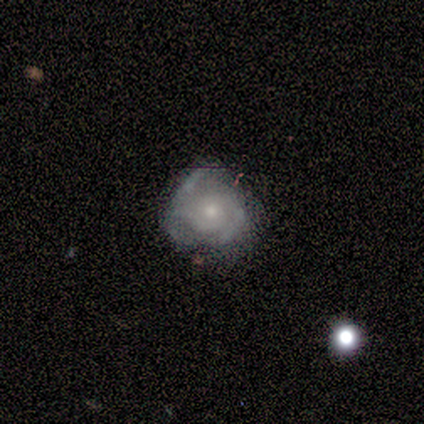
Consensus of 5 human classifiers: featured or disk 100%, smooth 0%, star or artifact 0%. Down the decision tree: edge-on disk — no (100%); bar — weak (60%); spiral arms — yes (80%); spiral arm count — can't tell (50%); spiral winding — tight (50%, tied with medium); bulge size — moderate (60%); merging — minor disturbance (80%).